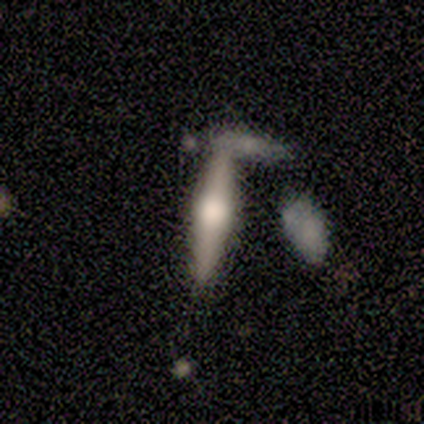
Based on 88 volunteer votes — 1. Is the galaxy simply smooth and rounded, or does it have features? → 58% featured or disk, 36% smooth, 6% star or artifact.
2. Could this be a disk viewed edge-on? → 96% yes, 4% no.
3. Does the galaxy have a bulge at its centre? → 88% rounded, 6% boxy, 6% none.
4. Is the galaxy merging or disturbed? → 65% none, 19% merger, 10% minor disturbance, 6% major disturbance.